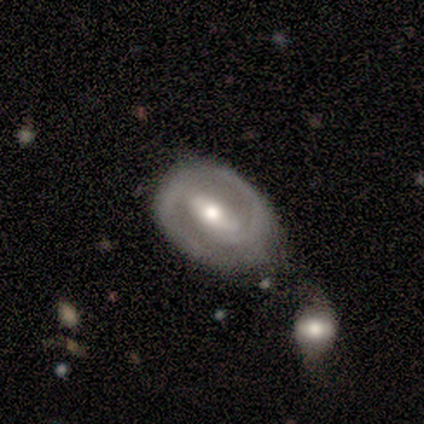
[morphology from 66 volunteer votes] This appears to be a featured or disk galaxy (86%) with a strong bar (74%), 2 (88%) medium (56%) spiral arms (88%) and a moderate central bulge (68%). Merging: none (48%).